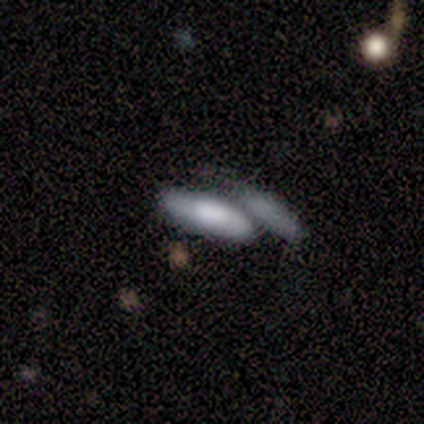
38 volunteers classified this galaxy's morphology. smooth-or-featured: smooth: 55% | featured or disk: 32% | star or artifact: 13%
  how-rounded: in between: 57% | cigar-shaped: 43% | round: 0%
  merging: merger: 61% | minor disturbance: 15% | none: 12% | major disturbance: 12%